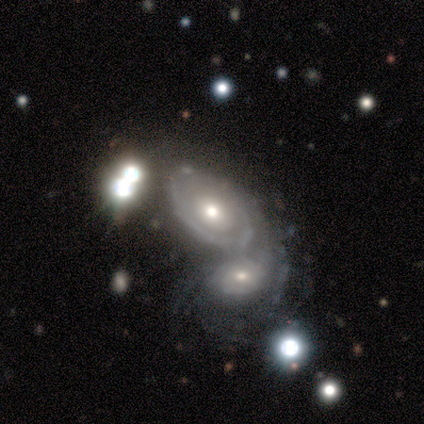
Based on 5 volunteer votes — Overall: featured or disk (100%). Edge-on disk: no (100%). Bar: no (100%). Spiral arms: no (80%). Bulge size: small (60%; large 20%). Merging: merger (60%; minor disturbance 20%).